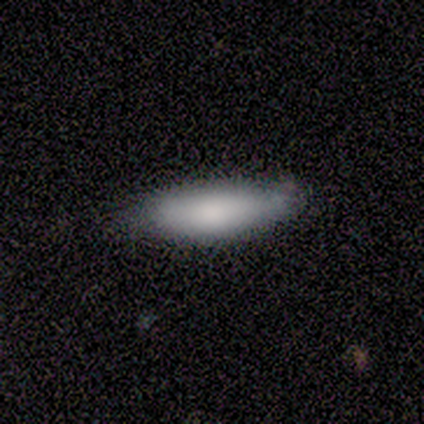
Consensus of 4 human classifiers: Q: Smooth or featured?
A: smooth (75%); runner-up: featured or disk (25%)
Q: How rounded?
A: cigar-shaped (67%); runner-up: in between (33%)
Q: Merging?
A: none (100%)